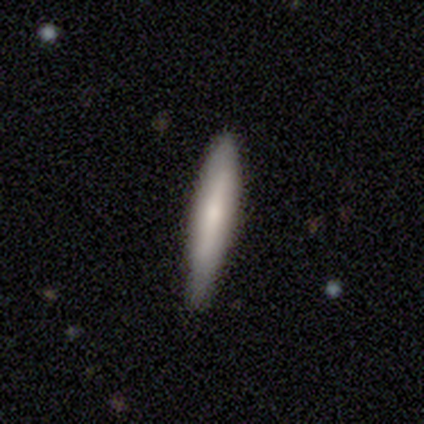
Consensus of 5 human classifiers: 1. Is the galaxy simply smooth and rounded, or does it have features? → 80% smooth, 20% featured or disk, 0% star or artifact.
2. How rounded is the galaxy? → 100% cigar-shaped, 0% round, 0% in between.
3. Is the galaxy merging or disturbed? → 60% none, 40% minor disturbance, 0% major disturbance, 0% merger.